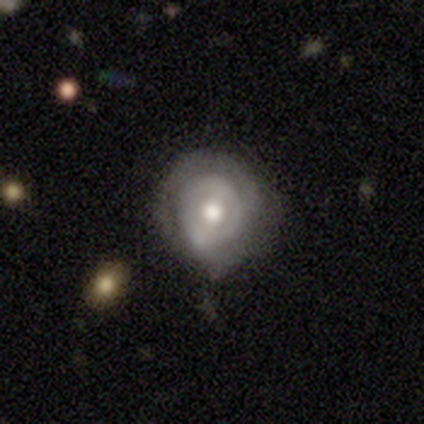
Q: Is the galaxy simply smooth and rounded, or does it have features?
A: featured or disk — 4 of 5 (80%).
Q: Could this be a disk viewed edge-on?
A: no — 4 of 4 (100%).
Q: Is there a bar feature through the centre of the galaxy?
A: no — 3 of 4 (75%).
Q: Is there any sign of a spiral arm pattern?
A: yes — 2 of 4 (50%, tied with no).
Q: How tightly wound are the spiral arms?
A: tight — 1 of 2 (50%, tied with medium).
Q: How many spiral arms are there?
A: can't tell — 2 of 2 (100%).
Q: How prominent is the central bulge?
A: moderate — 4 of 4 (100%).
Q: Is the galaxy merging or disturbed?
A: none — 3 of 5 (60%).